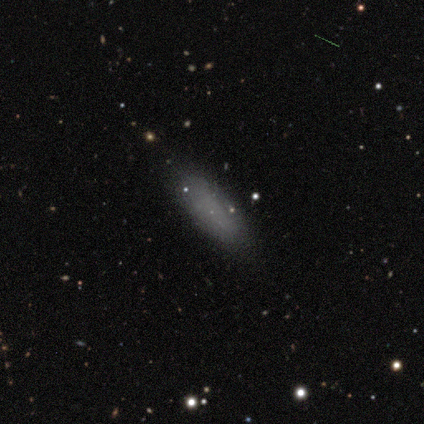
A smooth galaxy with no disk features (80%) that is in between round and cigar-shaped (75%). Merging: none (100%).